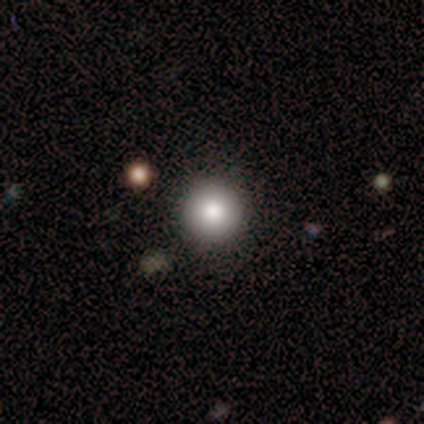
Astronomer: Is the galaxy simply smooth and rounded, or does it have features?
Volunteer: smooth — 60%.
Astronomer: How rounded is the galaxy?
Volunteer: round — 100%.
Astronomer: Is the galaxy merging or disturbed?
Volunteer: none — 75%.